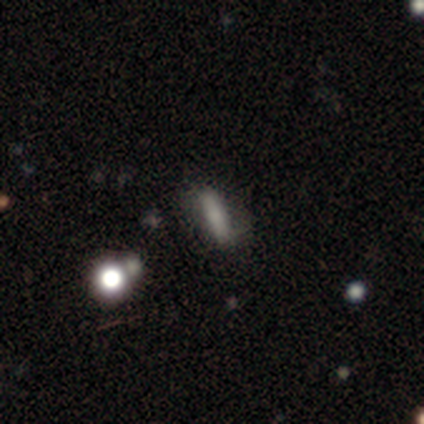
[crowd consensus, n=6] Morphology: type=smooth (83%); roundness=in between (60%); merging=none (80%).